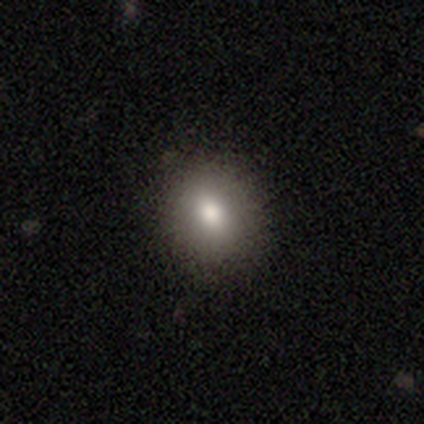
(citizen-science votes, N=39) Smooth or featured? 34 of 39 (87%) said smooth. How rounded? 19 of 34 (56%) said round. Merging? 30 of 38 (79%) said none.